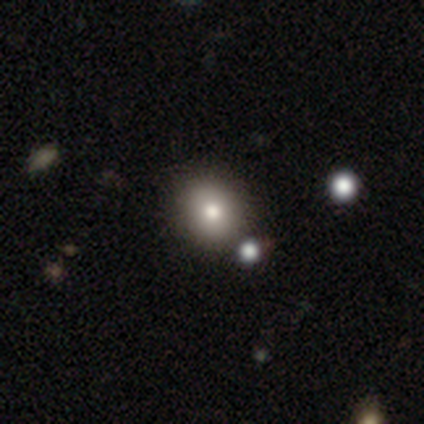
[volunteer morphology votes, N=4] smooth 75%, star or artifact 25%, featured or disk 0%. Down the decision tree: how rounded — in between (67%); merging — none (100%).